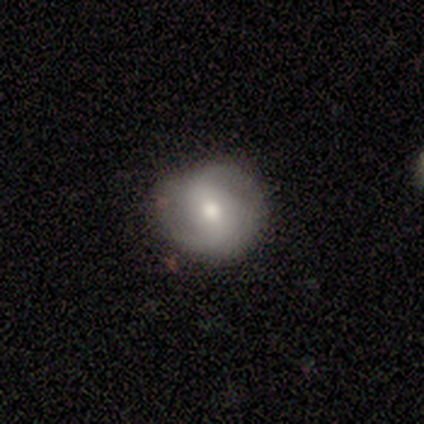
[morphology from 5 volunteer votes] featured or disk 80%, smooth 20%, star or artifact 0%. Down the decision tree: edge-on disk — no (100%); bar — weak (50%, tied with no); spiral arms — yes (75%); spiral arm count — 2 (100%); spiral winding — tight (67%); bulge size — moderate (100%); merging — none (100%).